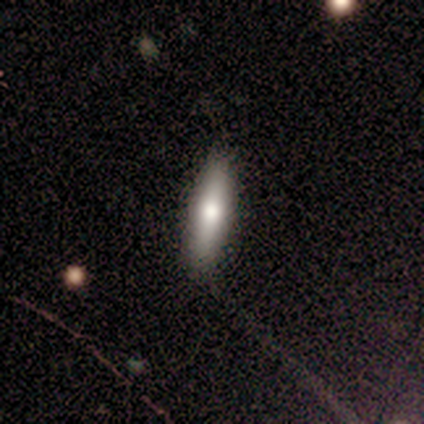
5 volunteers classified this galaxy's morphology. Q: Smooth or featured?
A: smooth (60%); runner-up: featured or disk (40%)
Q: How rounded?
A: cigar-shaped (100%)
Q: Merging?
A: none (100%)